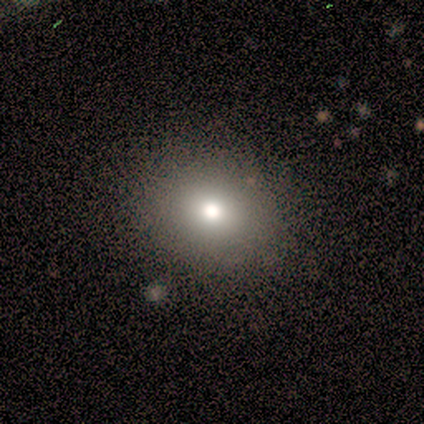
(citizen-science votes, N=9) A smooth galaxy with no disk features (89%) that is round (62%). Merging: none (78%).